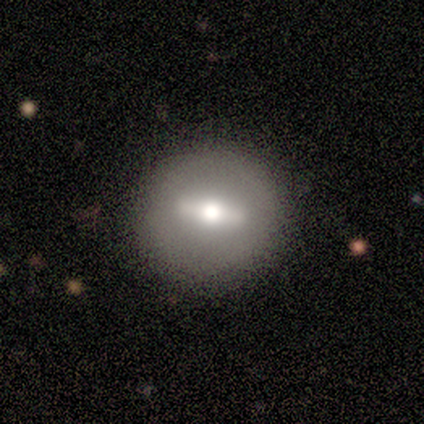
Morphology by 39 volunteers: A featured or disk galaxy (64%) with a strong bar (67%), no spiral arms (93%) and a moderate central bulge (47%). Merging: none (84%).